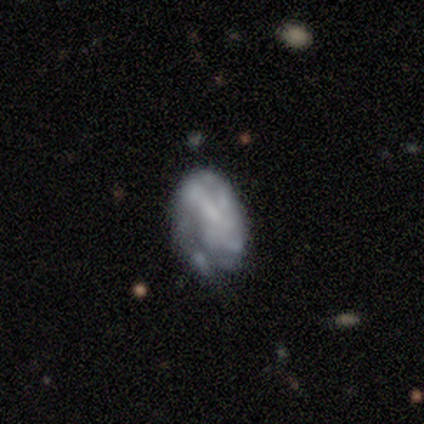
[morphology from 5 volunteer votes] smooth_or_featured: smooth (p=0.60) [alt: featured or disk p=0.40]
how_rounded: in between (p=1.00)
merging: none (p=0.60) [alt: minor disturbance p=0.40]